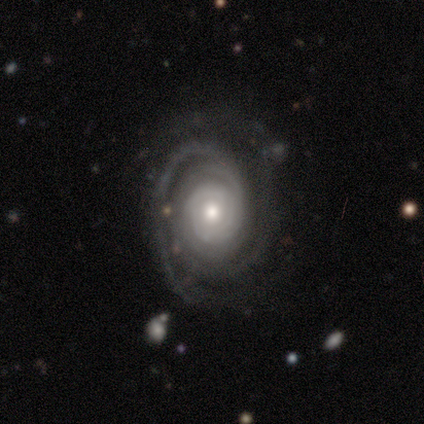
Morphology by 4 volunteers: featured or disk 100%, smooth 0%, star or artifact 0%. Down the decision tree: edge-on disk — no (100%); bar — no (100%); spiral arms — yes (100%); spiral arm count — 2 (50%); spiral winding — tight (100%); bulge size — moderate (50%); merging — none (100%).